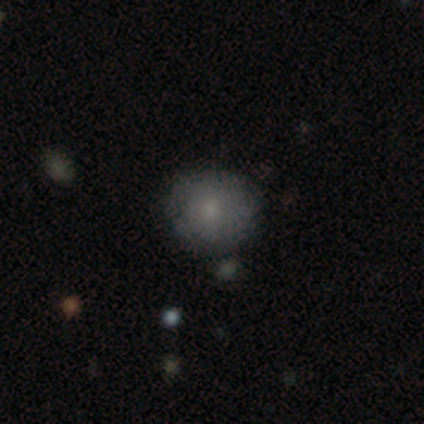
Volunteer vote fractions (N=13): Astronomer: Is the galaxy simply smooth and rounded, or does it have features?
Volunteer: smooth — 77%.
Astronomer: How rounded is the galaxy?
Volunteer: round — 80%.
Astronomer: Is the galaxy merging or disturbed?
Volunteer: none — 83%.